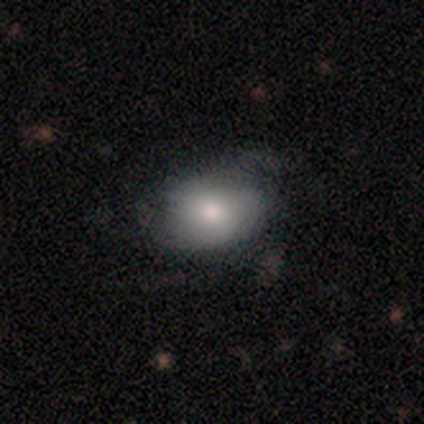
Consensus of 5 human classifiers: Morphology: type=smooth (80%); roundness=in between (75%); merging=none (60%).